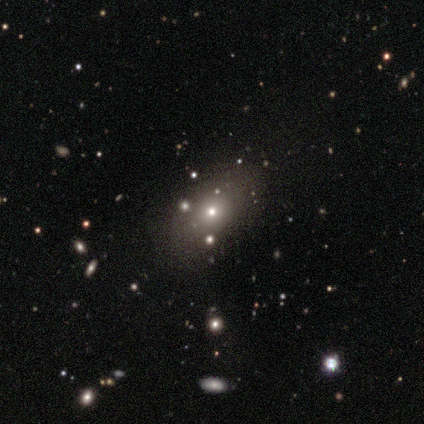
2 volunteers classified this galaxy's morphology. Smooth or featured? smooth (100%)
How rounded? round (50%, tied with in between)
Merging? none (50%, tied with major disturbance)